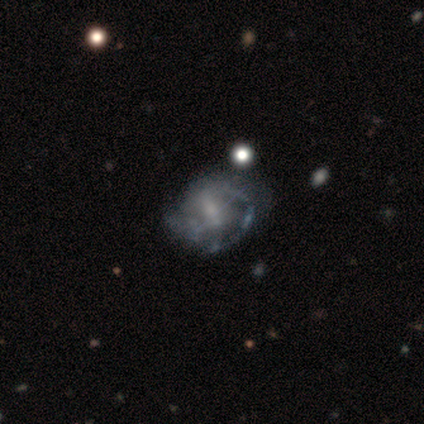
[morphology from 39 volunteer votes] featured or disk 77%, smooth 15%, star or artifact 8%. Down the decision tree: edge-on disk — no (100%); bar — no (43%); spiral arms — yes (63%); spiral arm count — can't tell (47%); spiral winding — medium (47%); bulge size — moderate (37%); merging — none (39%).